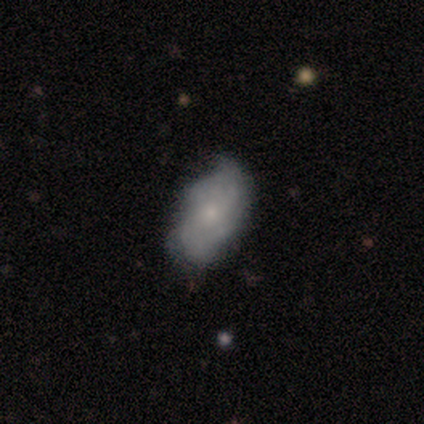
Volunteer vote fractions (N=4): Morphology: type=featured or disk (75%); edge-on=no (100%); bar=no (100%); spiral arms=yes (67%); winding=medium (100%); arm count=4 (50%, tied with can't tell); bulge=small (67%); merging=none (75%).